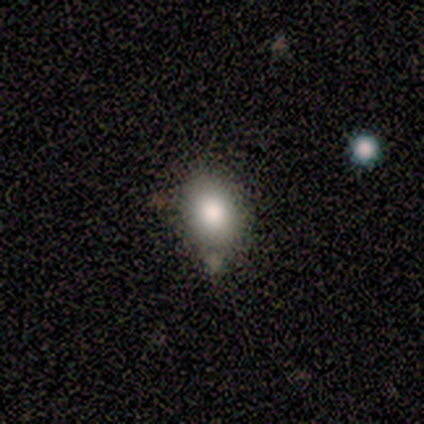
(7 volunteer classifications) A smooth galaxy with no disk features (57%) that is round (50%, tied with in between).

Vote fractions:
- Smooth or featured? smooth: 57% / featured or disk: 29% / star or artifact: 14%
- How rounded? round: 50% (tied) / in between: 50% (tied) / cigar-shaped: 0%
- Merging? none: 67% / minor disturbance: 17% / merger: 17% / major disturbance: 0%